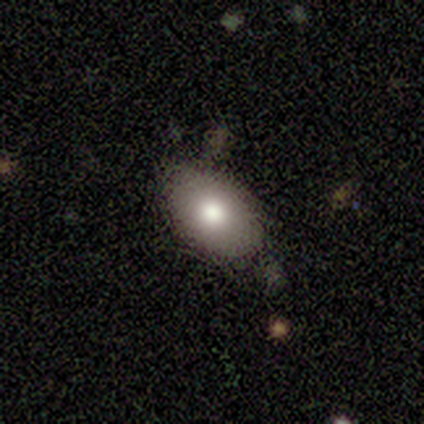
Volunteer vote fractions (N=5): A smooth galaxy with no disk features (80%) that is in between round and cigar-shaped (100%).

Vote fractions:
- Smooth or featured? smooth: 80% / featured or disk: 20% / star or artifact: 0%
- How rounded? in between: 100% / round: 0% / cigar-shaped: 0%
- Merging? none: 100% / minor disturbance: 0% / major disturbance: 0% / merger: 0%